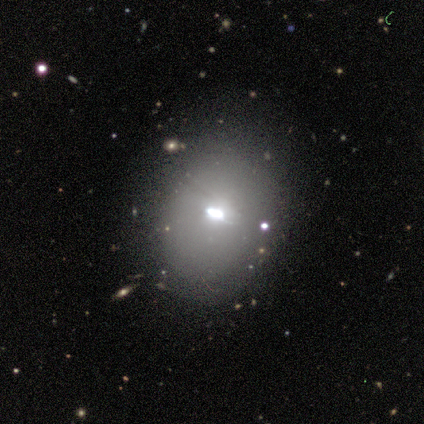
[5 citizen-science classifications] Smooth or featured? 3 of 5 (60%) said featured or disk. Edge-on disk? 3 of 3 (100%) said no. Bar? 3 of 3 (100%) said no. Spiral arms? 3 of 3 (100%) said no. Bulge size? 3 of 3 (100%) said moderate. Merging? 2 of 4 (50%) said none.